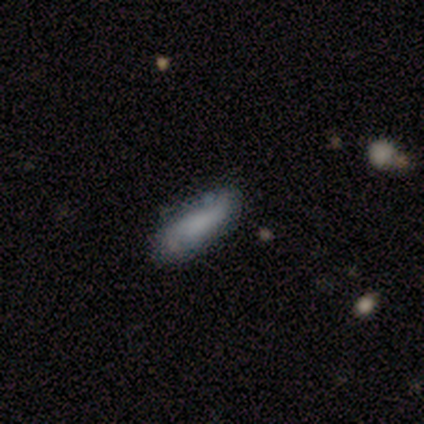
This is clearly a smooth galaxy (100%). How rounded: clearly in between (100%). Merging: clearly none (100%).